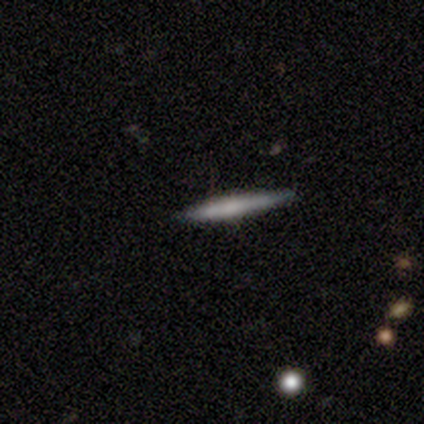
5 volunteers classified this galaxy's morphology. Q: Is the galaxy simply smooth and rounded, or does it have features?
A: smooth — 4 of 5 (80%).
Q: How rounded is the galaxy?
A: cigar-shaped — 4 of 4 (100%).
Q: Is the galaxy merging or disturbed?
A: none — 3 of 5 (60%).